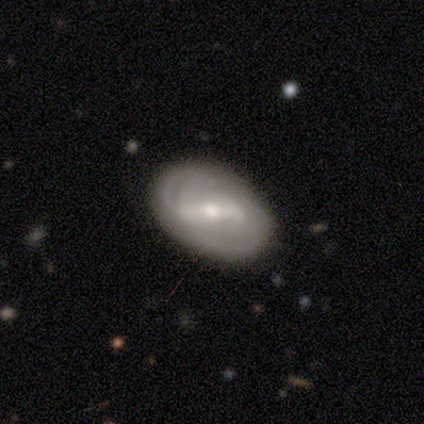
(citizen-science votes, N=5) Smooth or featured: featured or disk — 60% (smooth — 20%)
Edge-on disk: no — 100%
Bar: weak — 67% (strong — 33%)
Spiral arms: yes — 67% (no — 33%)
Spiral winding: tight — 100%
Spiral arm count: can't tell — 100%
Bulge size: moderate — 67% (small — 33%)
Merging: none — 100%